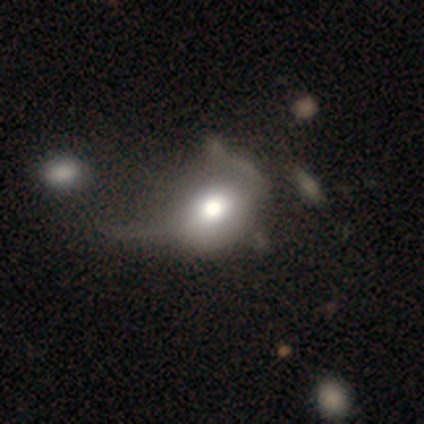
smooth 80%, featured or disk 20%, star or artifact 0%. Down the decision tree: how rounded — in between (75%); merging — major disturbance (60%).